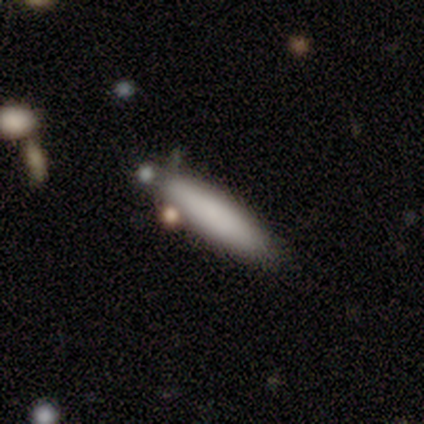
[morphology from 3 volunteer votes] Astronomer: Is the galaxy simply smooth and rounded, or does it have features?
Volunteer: smooth — 100%.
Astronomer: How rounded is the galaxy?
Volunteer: cigar-shaped — 67%.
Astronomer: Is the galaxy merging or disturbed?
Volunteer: none — 100%.